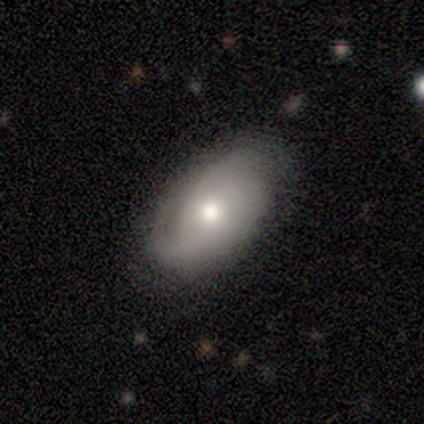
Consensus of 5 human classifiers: This is likely a featured or disk galaxy (60%). It is clearly not viewed edge-on (100%). Bar: clearly no (100%). Spiral arm pattern: likely yes (67%). Spiral arm count: clearly can't tell (100%). Spiral winding: clearly tight (100%). Central bulge: likely moderate (67%). Merging: likely none (60%).